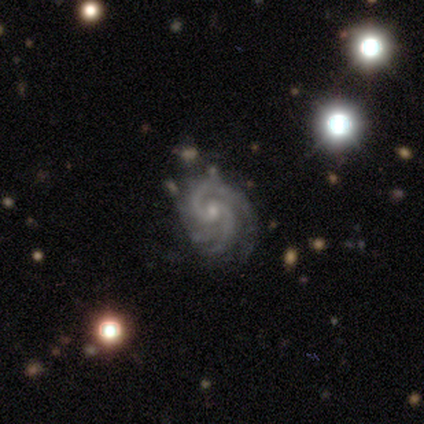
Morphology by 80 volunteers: Q: Smooth or featured?
A: featured or disk (96%); runner-up: star or artifact (2%)
Q: Edge-on disk?
A: no (97%); runner-up: yes (3%)
Q: Bar?
A: no (80%); runner-up: weak (15%)
Q: Spiral arms?
A: yes (99%); runner-up: no (1%)
Q: Spiral winding?
A: tight (57%); runner-up: medium (41%)
Q: Spiral arm count?
A: 2 (64%); runner-up: 3 (23%)
Q: Bulge size?
A: small (75%); runner-up: moderate (24%)
Q: Merging?
A: none (38%); runner-up: minor disturbance (10%)